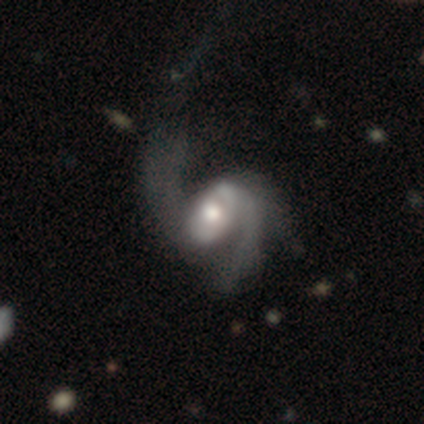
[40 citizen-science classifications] A featured or disk galaxy (95%) with no bar (55%), 2 (52%) loose (73%) spiral arms (87%) and a moderate central bulge (61%). Merging: major disturbance (35%).